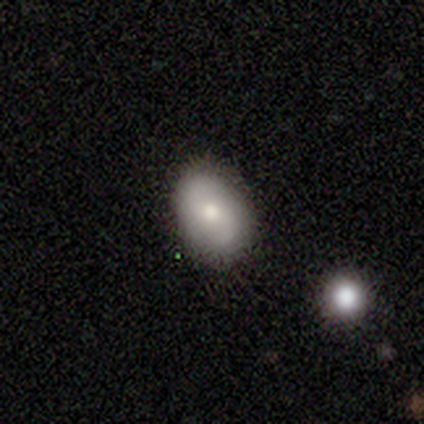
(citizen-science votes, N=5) Smooth or featured? smooth (40%, tied with featured or disk)
How rounded? round (50%, tied with in between)
Merging? none (75%)